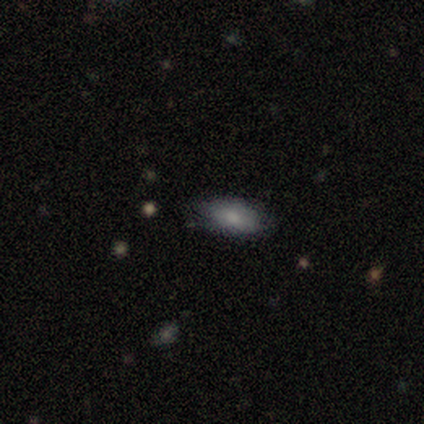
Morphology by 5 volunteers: Smooth or featured? 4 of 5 (80%) said smooth. How rounded? 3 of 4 (75%) said in between. Merging? 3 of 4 (75%) said none.